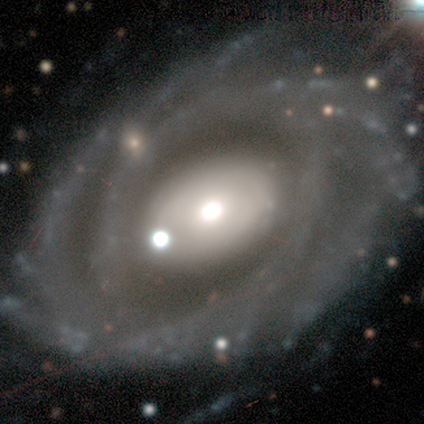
This appears to be a featured or disk galaxy (89%) with no bar (90%), more than 4 (45%) tight (61%) spiral arms (90%) and a moderate central bulge (49%). Merging: none (70%).